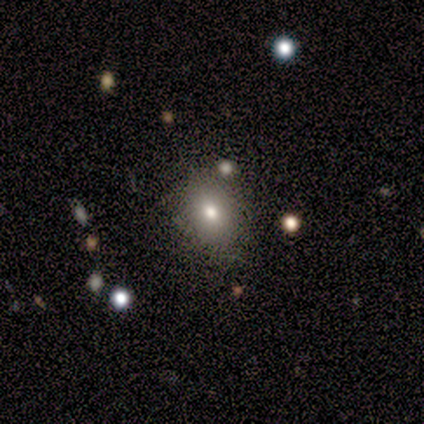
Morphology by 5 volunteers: Smooth or featured: smooth — 80% (featured or disk — 20%)
How rounded: round — 50% (tied with in between — 50%)
Merging: none — 80% (major disturbance — 20%)